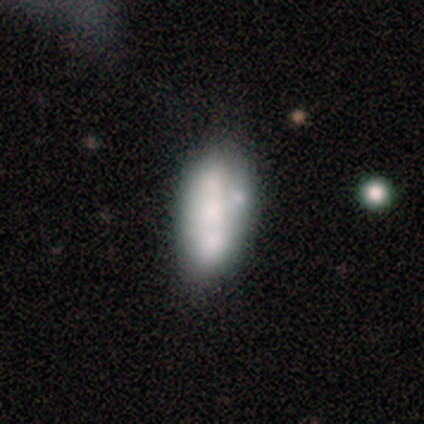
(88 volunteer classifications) This is possibly a smooth galaxy (48%). How rounded: clearly in between (90%). Merging: possibly none (51%).